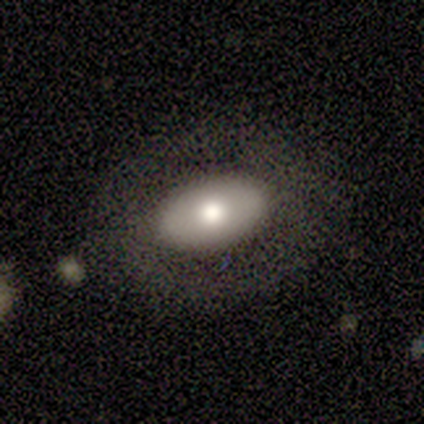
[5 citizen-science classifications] A smooth galaxy with no disk features (60%) that is in between round and cigar-shaped (100%). Merging: none (40%, tied with minor disturbance).